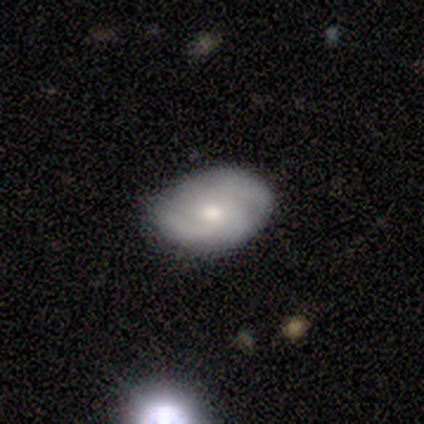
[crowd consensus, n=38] Morphology: type=featured or disk (66%); edge-on=no (96%); bar=no (79%); spiral arms=yes (92%); winding=tight (50%); arm count=2 (41%); bulge=moderate (54%); merging=none (64%).